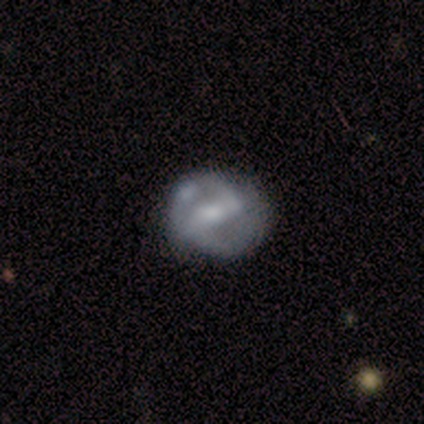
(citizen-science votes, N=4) Smooth or featured? featured or disk (100%)
Edge-on disk? no (100%)
Bar? weak (75%)
Spiral arms? yes (75%)
Spiral winding? tight (100%)
Spiral arm count? 2 (100%)
Bulge size? moderate (50%)
Merging? none (100%)